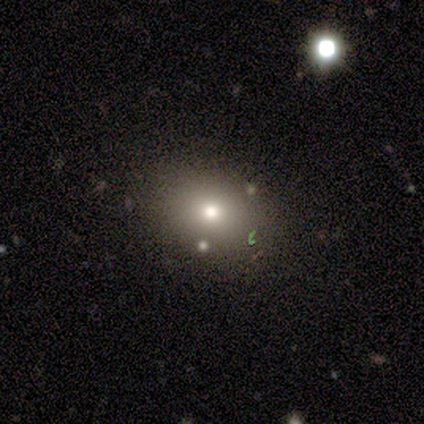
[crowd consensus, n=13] Smooth or featured? 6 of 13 (46%, tied with featured or disk) said smooth. How rounded? 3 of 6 (50%, tied with in between) said round. Merging? 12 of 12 (100%) said none.